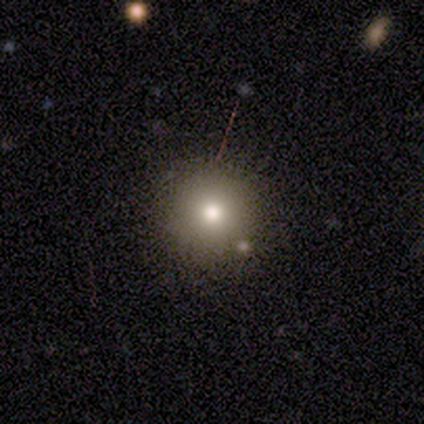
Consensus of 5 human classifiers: A smooth galaxy with no disk features (40%, tied with star or artifact) that is round (50%, tied with in between). Merging: none (100%).